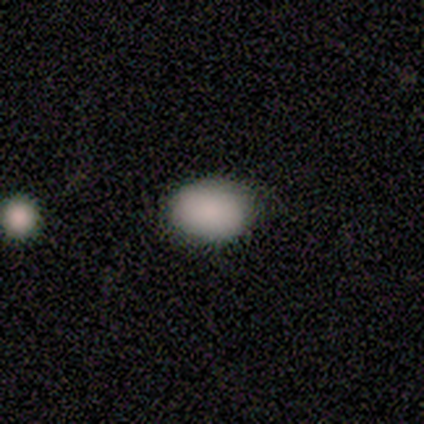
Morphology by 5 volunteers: Volunteers were most divided on "how rounded": in between: 60%, round: 40%, cigar-shaped: 0%. More confident: smooth or featured — smooth (100%); merging — none (100%).